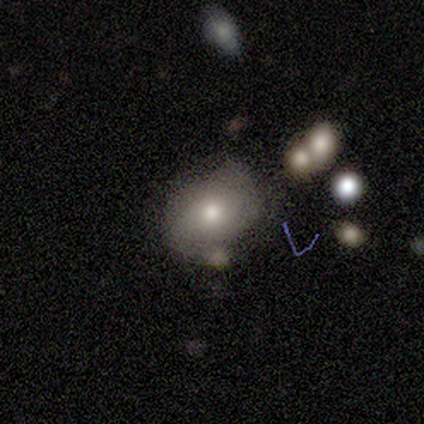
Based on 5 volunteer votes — Volunteers were most divided on "how rounded": in between: 60%, round: 40%, cigar-shaped: 0%. More confident: smooth or featured — smooth (100%); merging — none (60%).